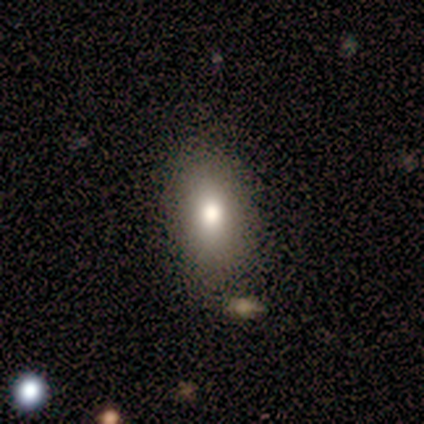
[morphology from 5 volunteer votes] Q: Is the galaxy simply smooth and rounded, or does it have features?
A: featured or disk — 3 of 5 (60%).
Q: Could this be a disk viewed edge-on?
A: no — 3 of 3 (100%).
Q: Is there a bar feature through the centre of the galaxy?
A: no — 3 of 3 (100%).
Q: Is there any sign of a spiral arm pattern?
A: no — 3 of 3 (100%).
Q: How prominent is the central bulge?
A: moderate — 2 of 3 (67%).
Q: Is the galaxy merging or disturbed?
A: none — 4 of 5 (80%).